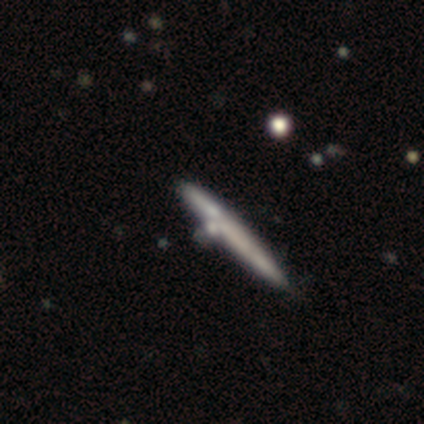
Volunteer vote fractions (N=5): smooth 100%, featured or disk 0%, star or artifact 0%. Down the decision tree: how rounded — cigar-shaped (100%); merging — none (40%, tied with merger).